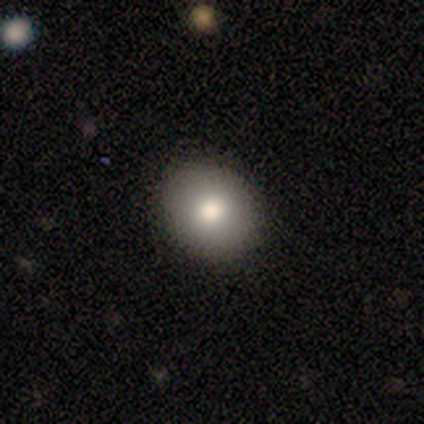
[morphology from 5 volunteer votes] This appears to be a smooth galaxy with no disk features (60%) that is in between round and cigar-shaped (100%). Merging: none (100%).